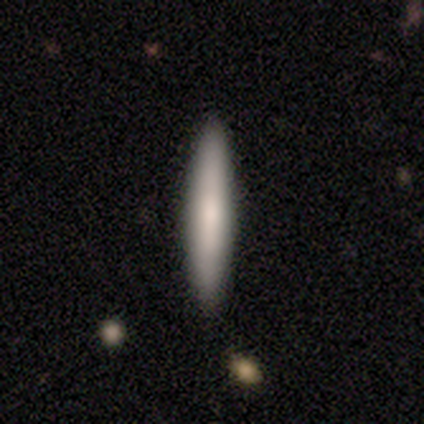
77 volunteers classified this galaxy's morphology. smooth-or-featured: smooth: 78% | featured or disk: 16% | star or artifact: 6%
  how-rounded: cigar-shaped: 98% | in between: 2% | round: 0%
  merging: none: 94% | minor disturbance: 3% | major disturbance: 1% | merger: 1%